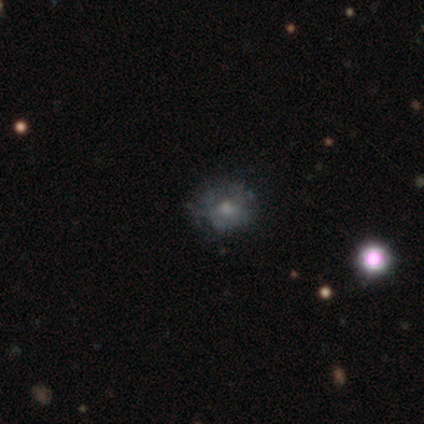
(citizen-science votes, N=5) Smooth or featured? 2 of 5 (40%, tied with featured or disk) said smooth. How rounded? 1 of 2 (50%, tied with in between) said round. Merging? 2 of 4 (50%, tied with minor disturbance) said none.